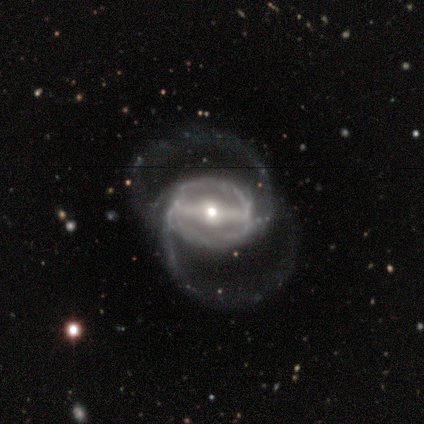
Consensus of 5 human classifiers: Smooth or featured?
  - featured or disk: 100% *
  - smooth: 0%
  - star or artifact: 0%
Edge-on disk?
  - no: 100% *
  - yes: 0%
Bar?
  - strong: 100% *
  - weak: 0%
  - no: 0%
Spiral arms?
  - yes: 80% *
  - no: 20%
Spiral winding?
  - medium: 75% *
  - loose: 25%
  - tight: 0%
Spiral arm count?
  - 2: 75% *
  - can't tell: 25%
  - 1: 0%
  - 3: 0%
  - 4: 0%
  - more than 4: 0%
Bulge size?
  - moderate: 80% *
  - small: 20%
  - dominant: 0%
  - large: 0%
  - none: 0%
Merging?
  - major disturbance: 60% *
  - none: 40%
  - minor disturbance: 0%
  - merger: 0%